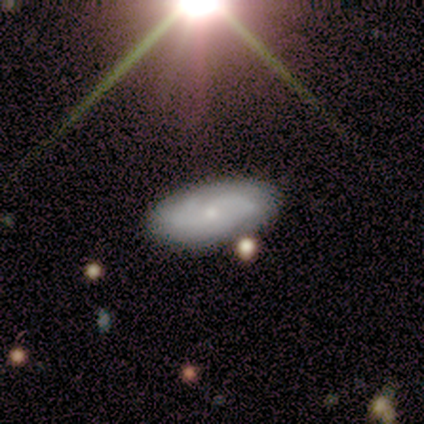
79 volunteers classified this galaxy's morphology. Overall: featured or disk (59%; smooth 30%). Edge-on disk: no (89%). Bar: no (86%). Spiral arms: yes (93%). Spiral arm count: can't tell (44%; 2 38%). Spiral winding: tight (41%, tied with medium). Bulge size: small (69%). Merging: none (76%).